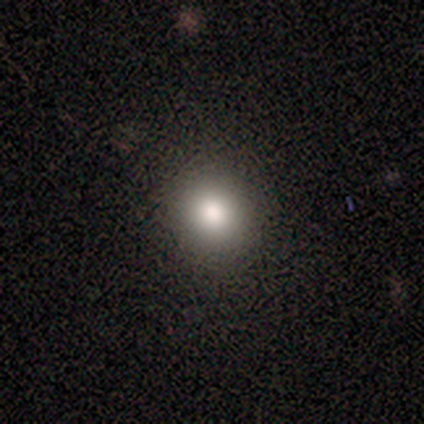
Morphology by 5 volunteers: type=smooth (100%); roundness=round (100%); merging=none (100%).